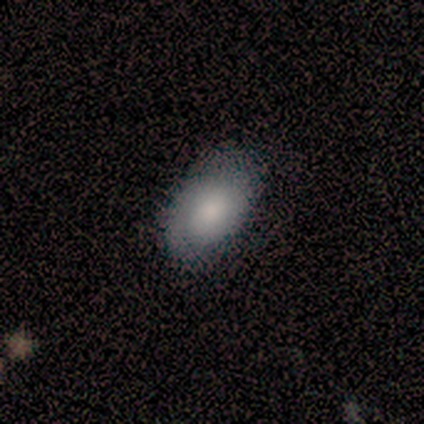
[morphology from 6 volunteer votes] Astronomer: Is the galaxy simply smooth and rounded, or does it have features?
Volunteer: smooth — 83%.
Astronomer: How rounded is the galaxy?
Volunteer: in between — 100%.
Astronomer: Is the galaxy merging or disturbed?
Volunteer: none — 67%.